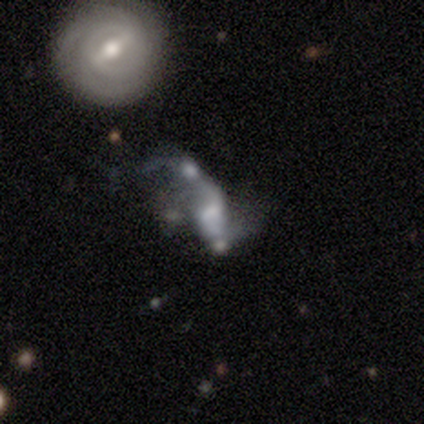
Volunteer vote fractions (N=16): Volunteers were most divided on "merging" (2-way tie): major disturbance: 38%, merger: 38%, none: 15%, minor disturbance: 8%. Remaining: edge-on disk — no (100%); spiral winding — loose (83%); spiral arms — yes (67%); bulge size — moderate (67%); smooth or featured — featured or disk (56%); spiral arm count — 2 (50%); bar — weak (44%).